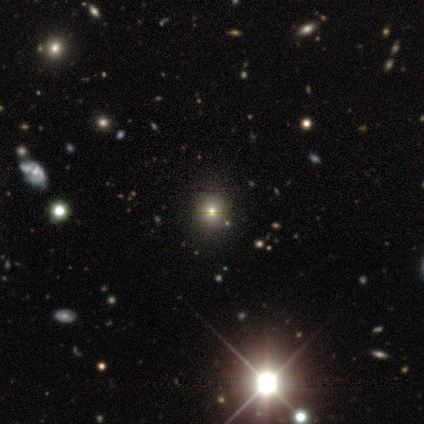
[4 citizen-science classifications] This is likely a star or artifact rather than a galaxy (75%).